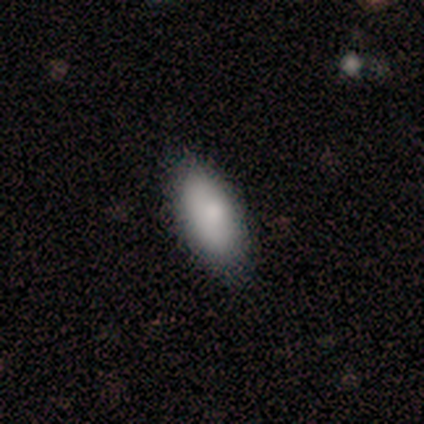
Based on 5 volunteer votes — Q: Smooth or featured?
A: featured or disk (60%); runner-up: smooth (40%)
Q: Edge-on disk?
A: no (67%); runner-up: yes (33%)
Q: Bar?
A: strong (50%); tied with: no (50%)
Q: Spiral arms?
A: yes (50%); tied with: no (50%)
Q: Spiral winding?
A: tight (100%)
Q: Spiral arm count?
A: more than 4 (100%)
Q: Bulge size?
A: small (100%)
Q: Merging?
A: minor disturbance (60%); runner-up: none (20%)